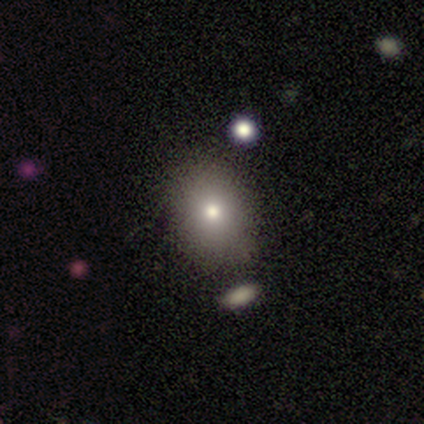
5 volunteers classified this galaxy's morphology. Volunteers were most divided on "how rounded" (2-way tie): round: 50%, in between: 50%, cigar-shaped: 0%. More confident: smooth or featured — smooth (80%); merging — none (80%).